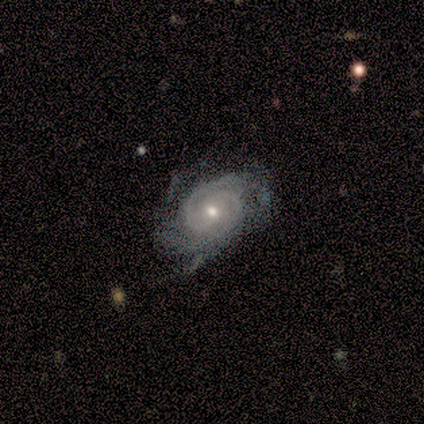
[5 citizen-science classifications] Smooth or featured? 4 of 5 (80%) said featured or disk. Edge-on disk? 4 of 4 (100%) said no. Bar? 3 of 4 (75%) said no. Spiral arms? 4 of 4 (100%) said yes. Spiral winding? 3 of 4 (75%) said tight. Spiral arm count? 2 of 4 (50%, tied with 3) said 2. Bulge size? 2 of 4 (50%, tied with small) said moderate. Merging? 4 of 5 (80%) said none.